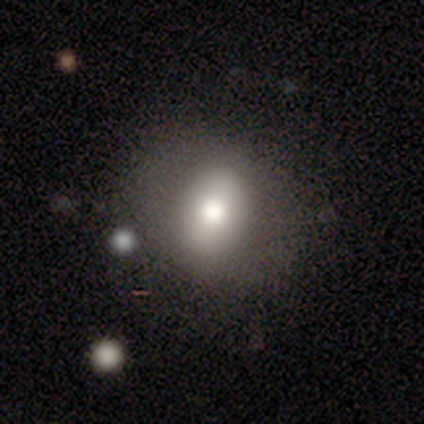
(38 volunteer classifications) This appears to be a smooth galaxy with no disk features (61%) that is in between round and cigar-shaped (74%). Merging: none (79%).